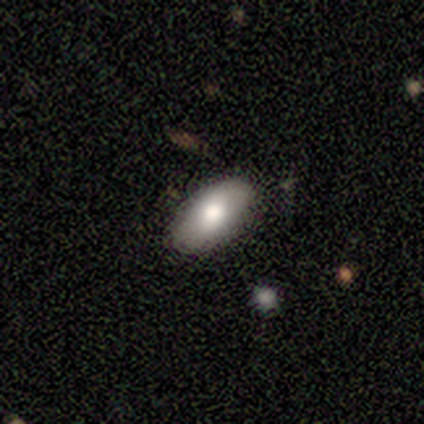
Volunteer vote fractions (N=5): smooth 60%, featured or disk 40%, star or artifact 0%. Down the decision tree: how rounded — in between (100%); merging — none (80%).